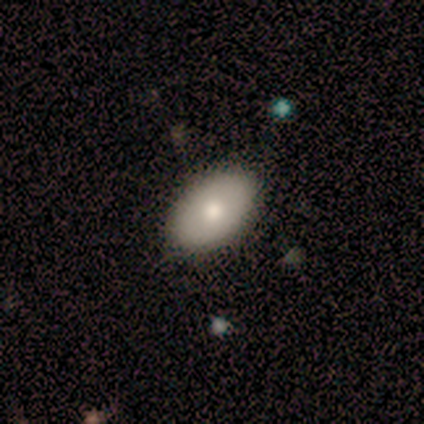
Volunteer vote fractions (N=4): Smooth or featured? smooth (75%)
How rounded? in between (100%)
Merging? none (75%)